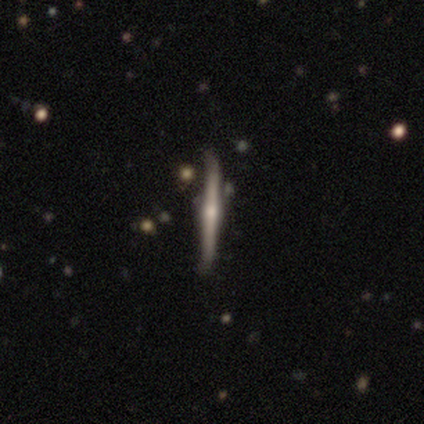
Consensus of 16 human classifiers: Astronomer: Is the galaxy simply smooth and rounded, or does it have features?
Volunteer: featured or disk — 75%.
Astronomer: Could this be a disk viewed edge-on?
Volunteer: yes — 100%.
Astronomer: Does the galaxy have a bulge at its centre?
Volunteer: rounded — 92%.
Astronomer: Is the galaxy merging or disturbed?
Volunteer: none — 79%.